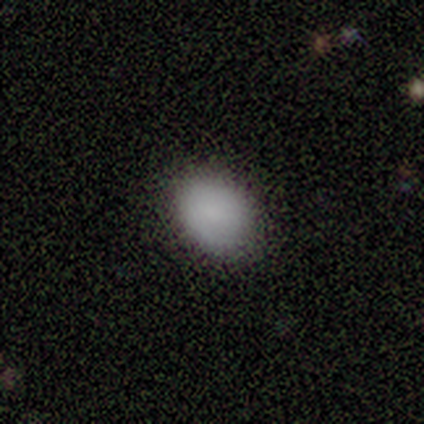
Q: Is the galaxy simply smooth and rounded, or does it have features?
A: smooth — 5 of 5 (100%).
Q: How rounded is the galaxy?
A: in between — 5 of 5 (100%).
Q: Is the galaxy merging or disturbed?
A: none — 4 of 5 (80%).